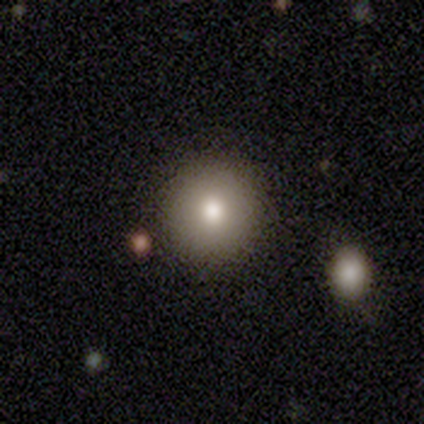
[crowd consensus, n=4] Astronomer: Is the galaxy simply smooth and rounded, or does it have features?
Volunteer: smooth — 100%.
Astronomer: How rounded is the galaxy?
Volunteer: round — 100%.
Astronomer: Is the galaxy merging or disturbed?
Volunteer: none — 75%.